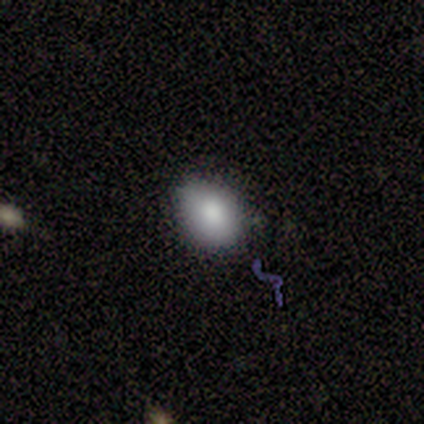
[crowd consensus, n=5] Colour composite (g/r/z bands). It shows a smooth galaxy with no disk features (60%) that is in between round and cigar-shaped (100%). Merging: none (100%).